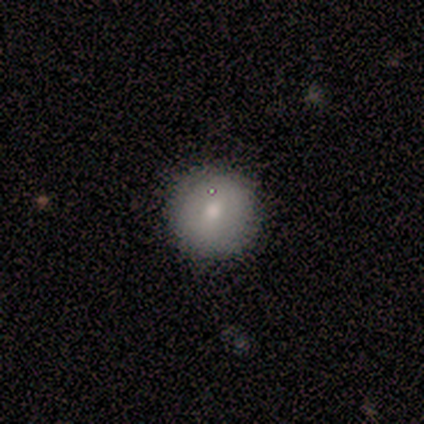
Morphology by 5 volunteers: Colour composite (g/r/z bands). It shows a smooth galaxy with no disk features (100%) that is round (100%). Merging: none (100%).